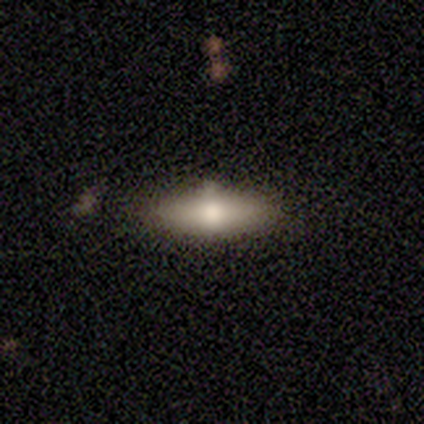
smooth 50% (tied), featured or disk 50% (tied), star or artifact 0%. Down the decision tree: how rounded — in between (50%, tied with cigar-shaped); merging — none (75%).